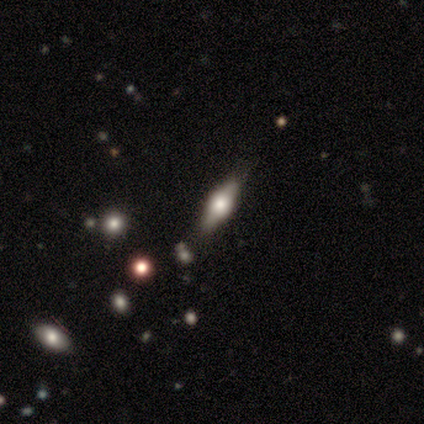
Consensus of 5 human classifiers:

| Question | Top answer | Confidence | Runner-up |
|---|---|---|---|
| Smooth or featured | featured or disk | 80% | smooth (20%) |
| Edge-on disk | yes | 100% | — |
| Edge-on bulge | rounded | 100% | — |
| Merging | none | 80% | minor disturbance (20%) |